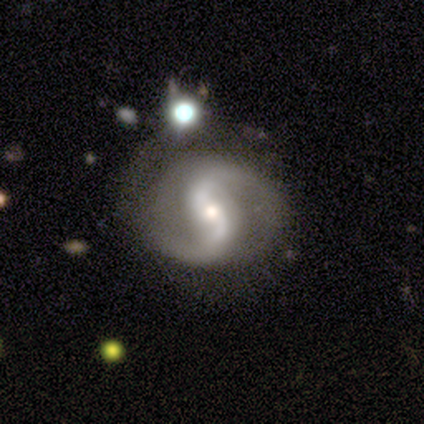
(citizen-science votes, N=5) Overall: featured or disk (60%; star or artifact 40%). Edge-on disk: no (100%). Bar: strong (33%, tied with weak and no). Spiral arms: yes (100%). Spiral arm count: 2 (100%). Spiral winding: medium (67%; loose 33%). Bulge size: small (100%). Merging: none (100%).